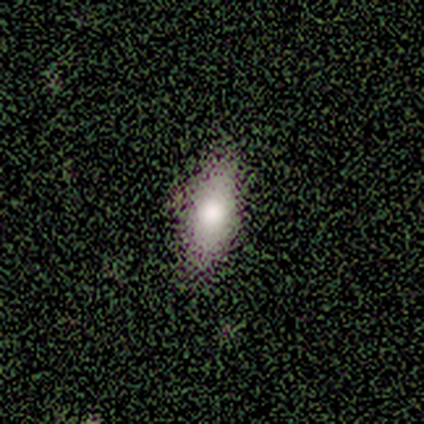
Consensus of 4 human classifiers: smooth_or_featured: smooth (p=0.75) [alt: featured or disk p=0.25]
how_rounded: in between (p=1.00)
merging: none (p=1.00)